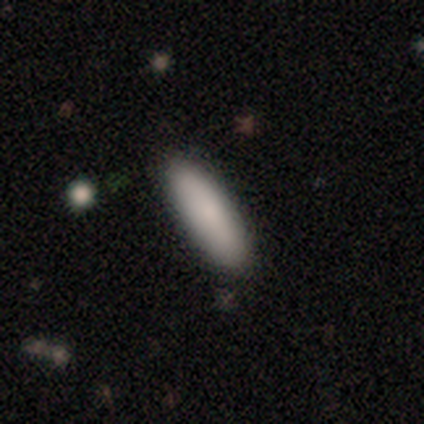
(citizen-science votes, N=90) Volunteers were most divided on "how rounded": cigar-shaped: 55%, in between: 44%, round: 1%. More confident: merging — none (93%); smooth or featured — smooth (87%).